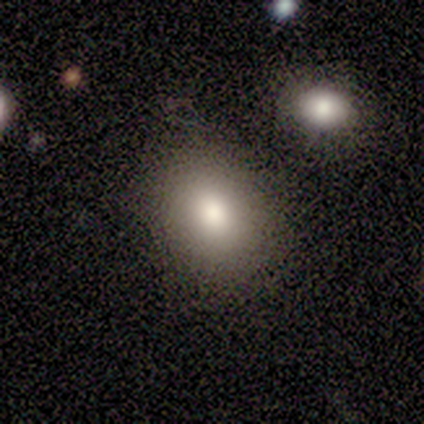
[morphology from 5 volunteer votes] Smooth or featured? smooth (80%)
How rounded? in between (75%)
Merging? none (80%)